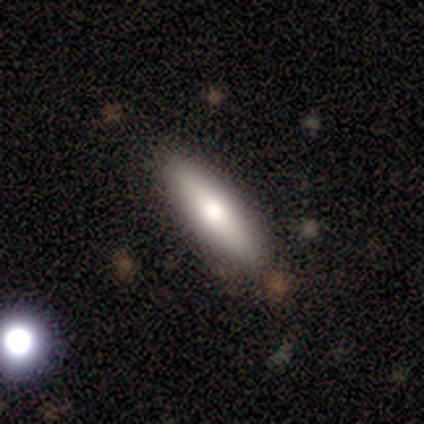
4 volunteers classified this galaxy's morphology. A smooth galaxy with no disk features (75%) that is cigar-shaped (67%).

Vote fractions:
- Smooth or featured? smooth: 75% / featured or disk: 25% / star or artifact: 0%
- How rounded? cigar-shaped: 67% / in between: 33% / round: 0%
- Merging? none: 75% / merger: 25% / minor disturbance: 0% / major disturbance: 0%